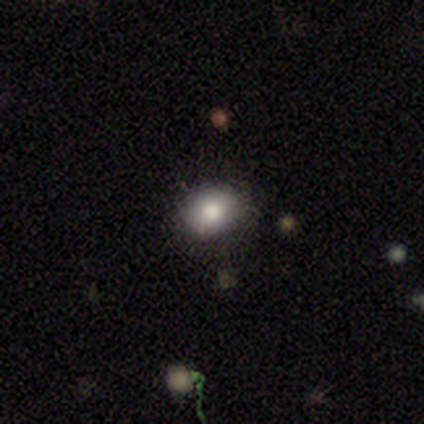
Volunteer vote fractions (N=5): smooth_or_featured: smooth (p=0.80) [alt: star or artifact p=0.20]
how_rounded: in between (p=0.75) [alt: round p=0.25]
merging: none (p=0.75) [alt: minor disturbance p=0.25]